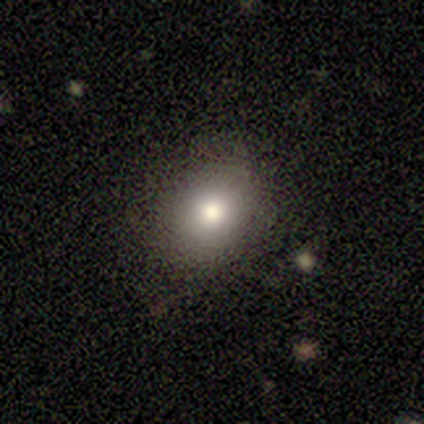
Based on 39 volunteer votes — Smooth or featured? 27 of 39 (69%) said smooth. How rounded? 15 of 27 (56%) said round. Merging? 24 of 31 (77%) said none.